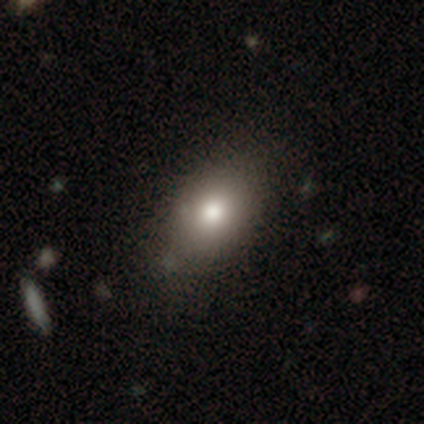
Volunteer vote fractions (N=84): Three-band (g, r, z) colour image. It shows a smooth galaxy with no disk features (75%) that is in between round and cigar-shaped (75%). Merging: none (82%).